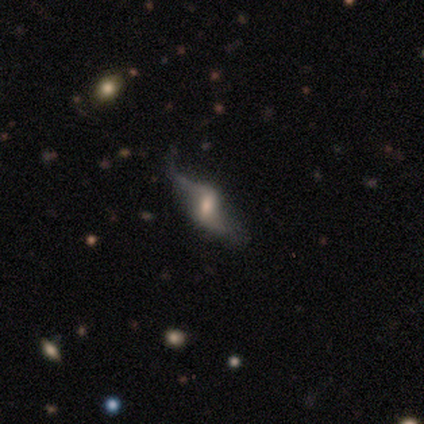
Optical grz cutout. It shows a featured or disk galaxy (75%) with a weak bar (67%), 2 (100%) loose (100%) spiral arms (67%) and a moderate central bulge (100%). Merging: none (50%).